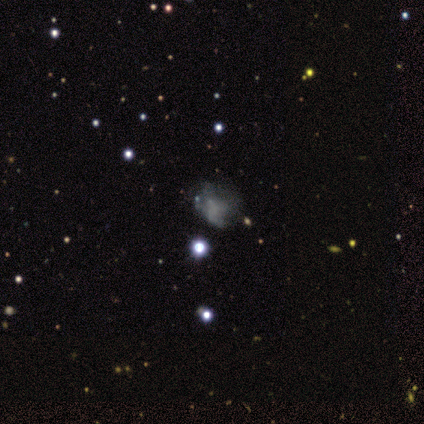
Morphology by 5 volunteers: Smooth or featured? smooth (60%)
How rounded? in between (67%)
Merging? none (40%, tied with minor disturbance)